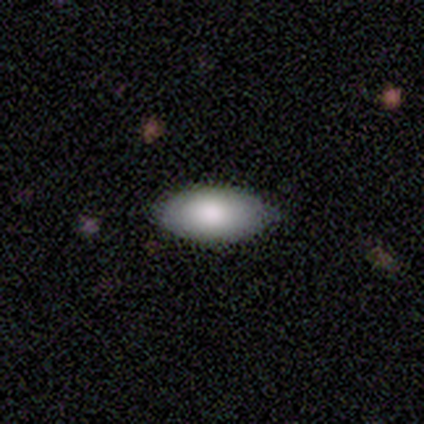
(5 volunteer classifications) A smooth galaxy with no disk features (100%) that is in between round and cigar-shaped (100%). Merging: none (80%).